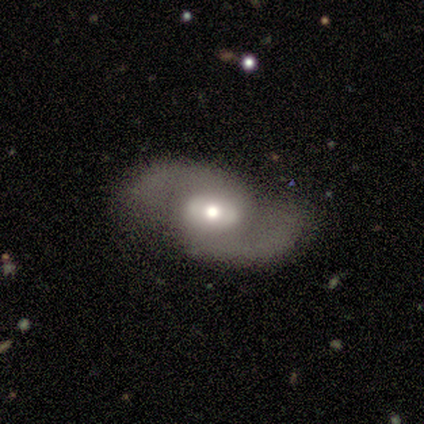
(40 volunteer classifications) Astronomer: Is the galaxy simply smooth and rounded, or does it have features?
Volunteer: featured or disk — 78%.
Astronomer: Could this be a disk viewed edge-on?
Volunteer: no — 97%.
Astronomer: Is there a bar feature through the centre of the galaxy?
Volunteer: no — 57%.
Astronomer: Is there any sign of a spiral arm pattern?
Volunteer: yes — 97%.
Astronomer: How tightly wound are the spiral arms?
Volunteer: medium — 62%.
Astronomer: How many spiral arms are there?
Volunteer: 2 — 97%.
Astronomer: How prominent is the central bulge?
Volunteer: moderate — 60%.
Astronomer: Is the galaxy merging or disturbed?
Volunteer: none — 70%.